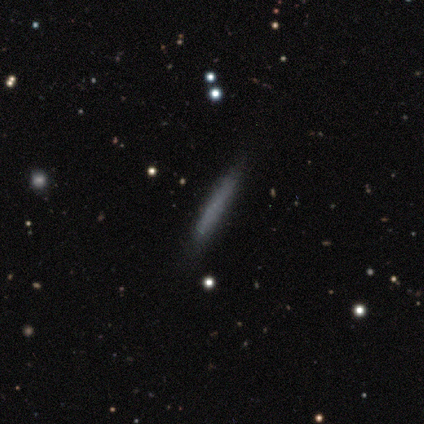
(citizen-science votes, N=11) Morphology: type=smooth (64%); roundness=cigar-shaped (100%); merging=none (90%).